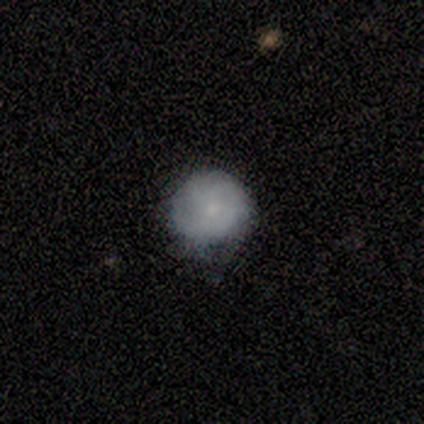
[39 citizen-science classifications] Smooth or featured? 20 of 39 (51%) said smooth. How rounded? 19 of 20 (95%) said round. Merging? 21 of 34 (62%) said none.